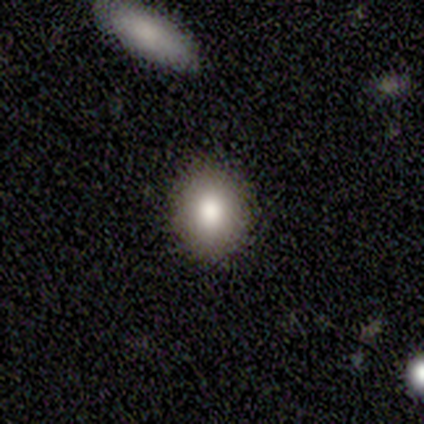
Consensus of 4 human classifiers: Overall: smooth (75%). How rounded: round (67%; in between 33%). Merging: none (100%).